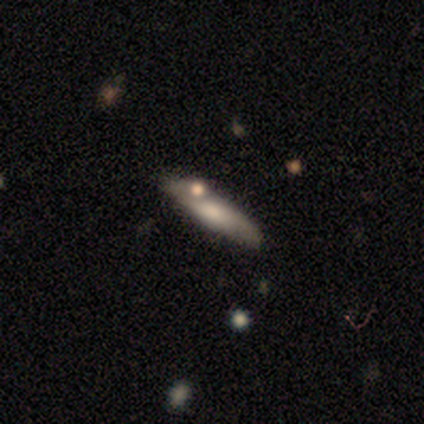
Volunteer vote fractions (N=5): Volunteers were most divided on "how rounded": cigar-shaped: 80%, in between: 20%, round: 0%. More confident: smooth or featured — smooth (100%); merging — none (100%).